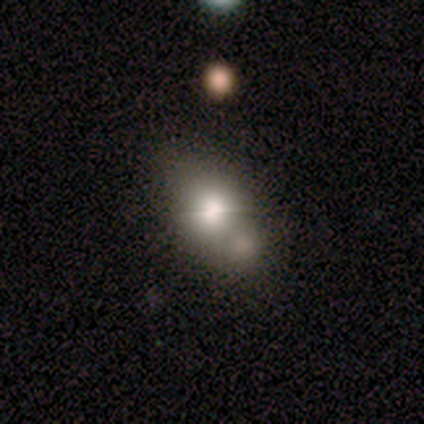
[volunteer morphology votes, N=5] This appears to be a smooth galaxy with no disk features (80%) that is round (75%). Merging: minor disturbance (50%).